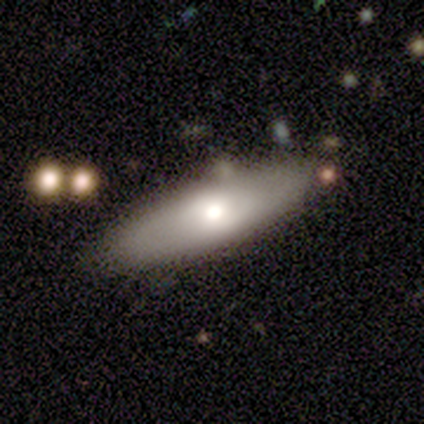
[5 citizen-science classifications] Smooth or featured? 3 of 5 (60%) said featured or disk. Edge-on disk? 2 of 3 (67%) said no. Bar? 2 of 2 (100%) said no. Spiral arms? 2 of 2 (100%) said no. Bulge size? 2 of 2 (100%) said moderate. Merging? 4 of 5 (80%) said none.